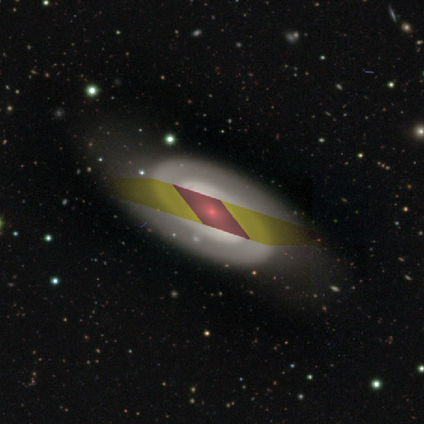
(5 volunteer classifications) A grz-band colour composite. It shows a featured or disk galaxy (100%) with a strong bar (50%, tied with weak), 2 (100%) medium (67%) spiral arms (75%) and a small central bulge (100%). Merging: none (60%).